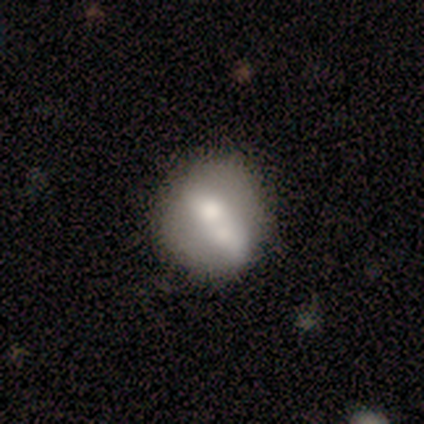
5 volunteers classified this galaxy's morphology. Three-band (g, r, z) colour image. It shows a smooth galaxy with no disk features (60%) that is round (67%). Merging: none (60%).